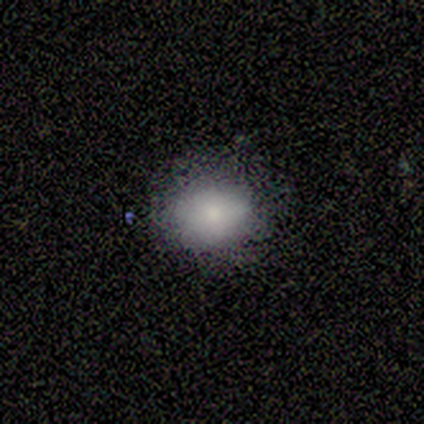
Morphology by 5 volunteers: type=smooth (80%); roundness=round (100%); merging=none (100%).